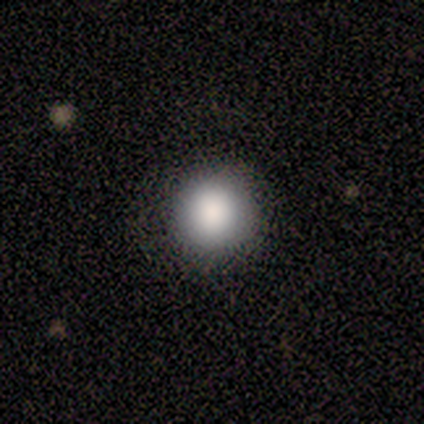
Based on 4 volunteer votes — A smooth galaxy with no disk features (100%) that is round (100%).

Vote fractions:
- Smooth or featured? smooth: 100% / featured or disk: 0% / star or artifact: 0%
- How rounded? round: 100% / in between: 0% / cigar-shaped: 0%
- Merging? none: 75% / minor disturbance: 25% / major disturbance: 0% / merger: 0%